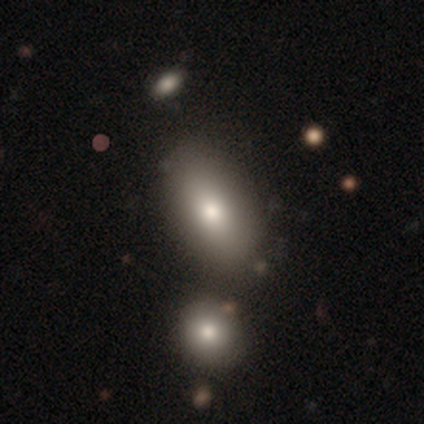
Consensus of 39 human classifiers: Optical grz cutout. It shows a smooth galaxy with no disk features (79%) that is in between round and cigar-shaped (87%). Merging: none (68%).